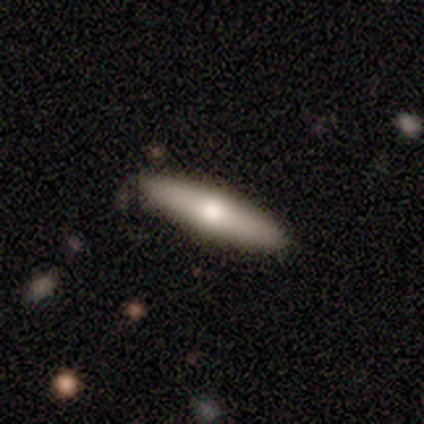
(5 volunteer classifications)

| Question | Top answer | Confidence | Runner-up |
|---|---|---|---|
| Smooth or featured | smooth | 100% | — |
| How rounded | cigar-shaped | 100% | — |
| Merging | none | 100% | — |